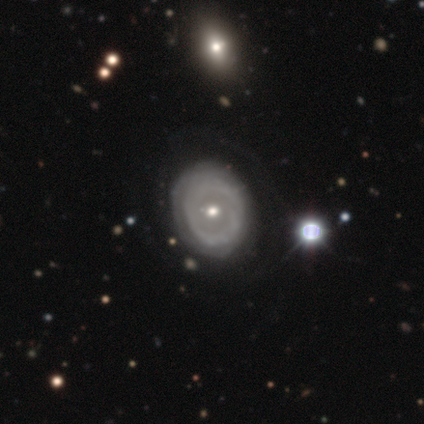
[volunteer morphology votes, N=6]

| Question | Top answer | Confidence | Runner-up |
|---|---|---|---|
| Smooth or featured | smooth | 50% | tied: featured or disk (50%) |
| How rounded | in between | 67% | round (33%) |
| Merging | none | 67% | minor disturbance (17%) |